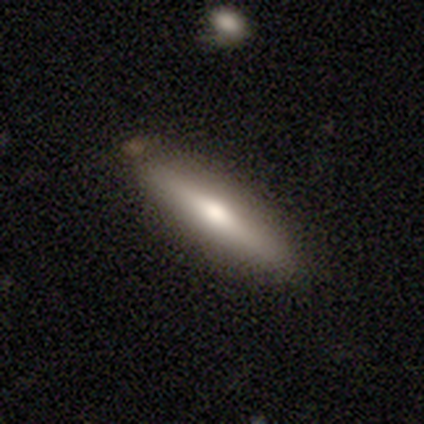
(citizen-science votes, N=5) Morphology: type=featured or disk (80%); edge-on=yes (100%); edge-on bulge=rounded (100%); merging=none (60%).